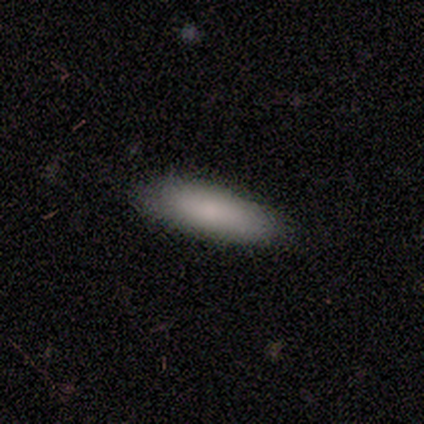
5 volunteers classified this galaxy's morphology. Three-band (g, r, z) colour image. It shows a smooth galaxy with no disk features (100%) that is cigar-shaped (60%). Merging: none (80%).